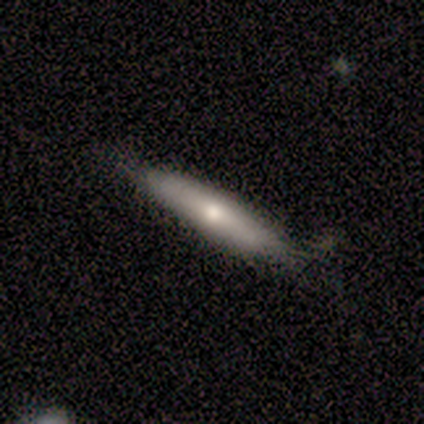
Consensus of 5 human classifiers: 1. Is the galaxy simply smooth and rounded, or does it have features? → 60% smooth, 40% featured or disk, 0% star or artifact.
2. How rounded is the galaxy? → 100% cigar-shaped, 0% round, 0% in between.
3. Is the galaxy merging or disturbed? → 60% none, 40% major disturbance, 0% minor disturbance, 0% merger.